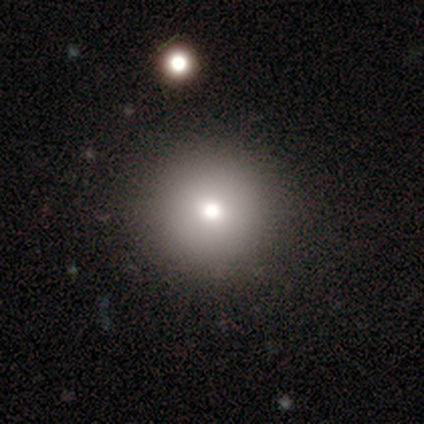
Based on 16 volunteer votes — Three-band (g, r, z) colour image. It shows a smooth galaxy with no disk features (81%) that is round (100%). Merging: none (93%).